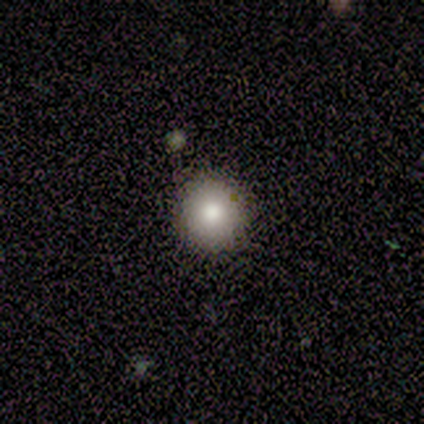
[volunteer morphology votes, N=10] Volunteers were most divided on "smooth or featured": smooth: 90%, featured or disk: 10%, star or artifact: 0%. More confident: how rounded — round (100%); merging — none (90%).